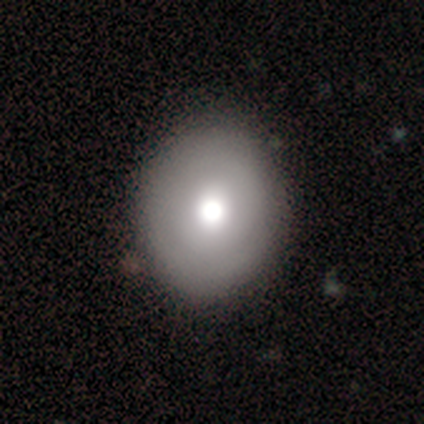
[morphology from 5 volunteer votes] A smooth galaxy with no disk features (100%) that is round (60%).

Vote fractions:
- Smooth or featured? smooth: 100% / featured or disk: 0% / star or artifact: 0%
- How rounded? round: 60% / in between: 40% / cigar-shaped: 0%
- Merging? minor disturbance: 60% / none: 40% / major disturbance: 0% / merger: 0%